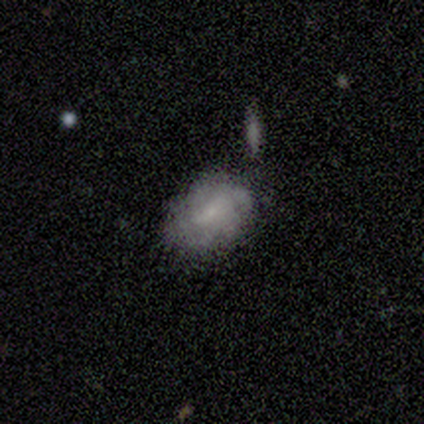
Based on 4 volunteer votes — Smooth or featured? 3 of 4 (75%) said smooth. How rounded? 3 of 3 (100%) said in between. Merging? 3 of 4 (75%) said none.